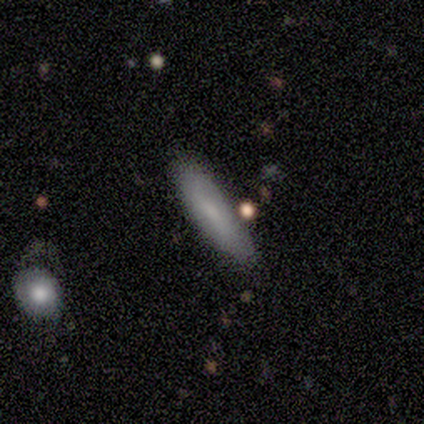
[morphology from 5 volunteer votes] Smooth or featured? 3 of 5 (60%) said featured or disk. Edge-on disk? 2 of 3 (67%) said no. Bar? 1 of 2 (50%, tied with no) said weak. Spiral arms? 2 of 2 (100%) said no. Bulge size? 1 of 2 (50%, tied with small) said moderate. Merging? 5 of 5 (100%) said none.